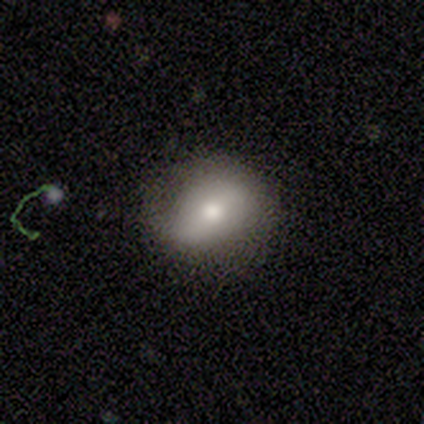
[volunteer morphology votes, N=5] This is marginally a smooth galaxy (40%, tied with featured or disk). How rounded: clearly round (100%). Merging: likely minor disturbance (75%).